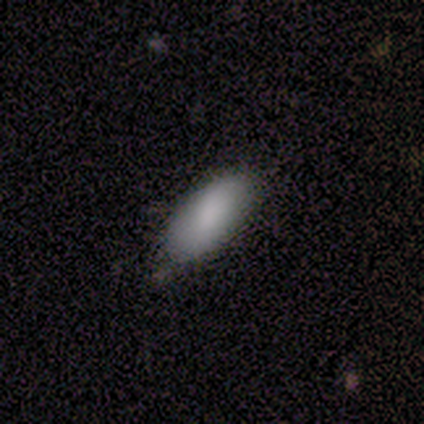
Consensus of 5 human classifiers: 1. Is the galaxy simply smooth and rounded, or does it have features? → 60% smooth, 40% star or artifact, 0% featured or disk.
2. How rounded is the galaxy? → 100% in between, 0% round, 0% cigar-shaped.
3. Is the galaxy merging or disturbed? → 100% none, 0% minor disturbance, 0% major disturbance, 0% merger.